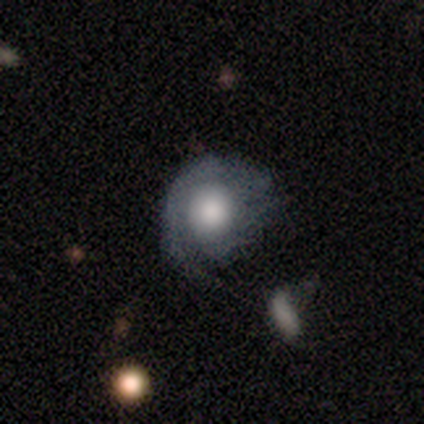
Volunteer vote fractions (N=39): Smooth or featured: featured or disk — 56% (smooth — 36%)
Edge-on disk: no — 86% (yes — 14%)
Bar: no — 74% (weak — 21%)
Spiral arms: yes — 58% (no — 42%)
Spiral winding: tight — 45% (tied with loose — 45%)
Spiral arm count: 1 — 64% (2 — 27%)
Bulge size: large — 58% (moderate — 32%)
Merging: none — 31% (minor disturbance — 28%)